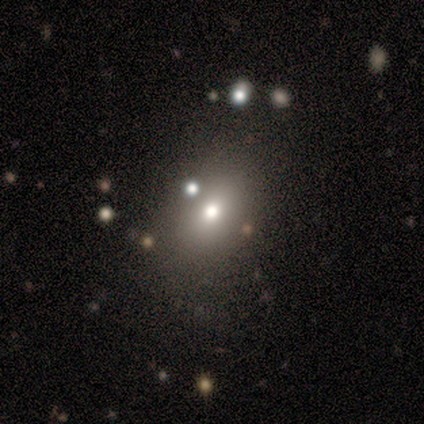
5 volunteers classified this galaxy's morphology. Volunteers were most divided on "smooth or featured": star or artifact: 60%, smooth: 40%, featured or disk: 0%.